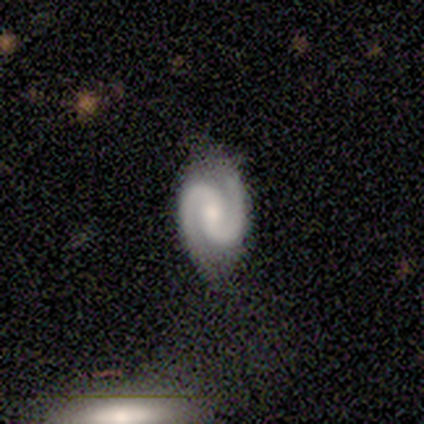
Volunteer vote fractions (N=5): featured or disk 100%, smooth 0%, star or artifact 0%. Down the decision tree: edge-on disk — no (100%); bar — strong (40%, tied with no); spiral arms — yes (100%); spiral arm count — 2 (100%); spiral winding — tight (40%, tied with medium); bulge size — small (60%); merging — none (80%).